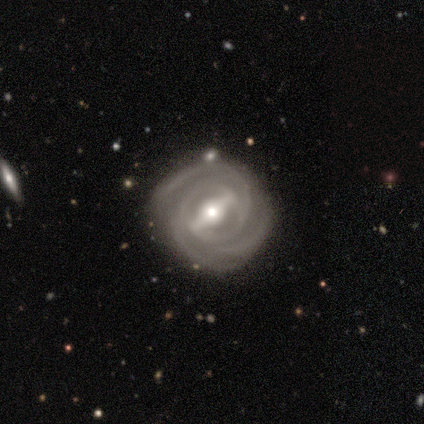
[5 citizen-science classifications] A featured or disk galaxy (100%) with a strong bar (67%), 3 (100%) tight (100%) spiral arms (100%) and a moderate central bulge (100%).

Vote fractions:
- Smooth or featured? featured or disk: 100% / smooth: 0% / star or artifact: 0%
- Edge-on disk? no: 60% / yes: 40%
- Bar? strong: 67% / weak: 33% / no: 0%
- Spiral arms? yes: 100% / no: 0%
- Spiral winding? tight: 100% / medium: 0% / loose: 0%
- Spiral arm count? 3: 100% / 1: 0% / 2: 0% / 4: 0% / more than 4: 0% / can't tell: 0%
- Bulge size? moderate: 100% / dominant: 0% / large: 0% / small: 0% / none: 0%
- Merging? none: 60% / minor disturbance: 20% / major disturbance: 20% / merger: 0%